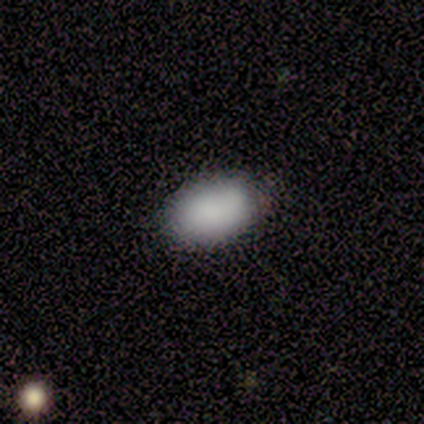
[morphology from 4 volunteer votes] smooth-or-featured: smooth: 100% | featured or disk: 0% | star or artifact: 0%
  how-rounded: in between: 100% | round: 0% | cigar-shaped: 0%
  merging: none: 75% | minor disturbance: 25% | major disturbance: 0% | merger: 0%